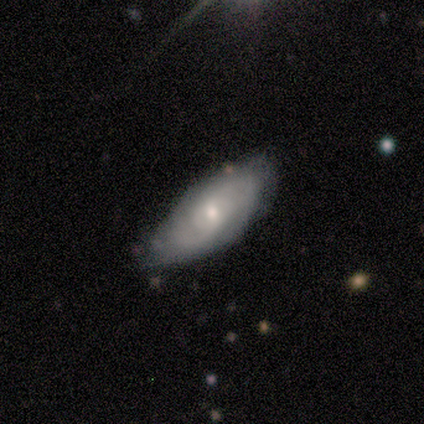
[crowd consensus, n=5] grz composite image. It shows a featured or disk galaxy (100%) with a weak bar (60%), 2 (40%, tied with can't tell) tight (60%) spiral arms (100%) and a moderate central bulge (40%, tied with small). Merging: none (100%).